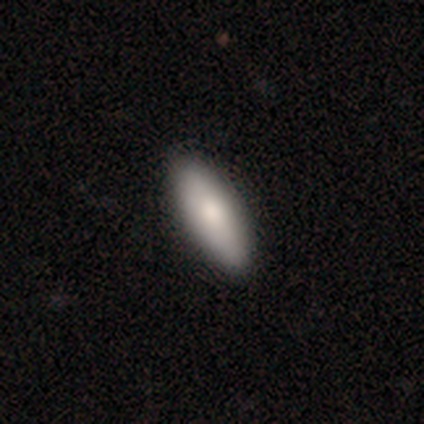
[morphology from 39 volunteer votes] type=smooth (82%); roundness=in between (53%); merging=none (90%).